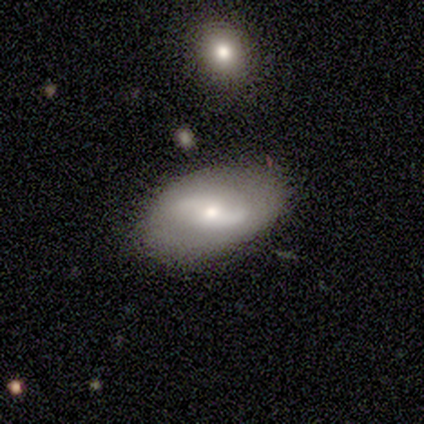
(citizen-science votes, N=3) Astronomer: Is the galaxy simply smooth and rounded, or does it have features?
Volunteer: featured or disk — 67%.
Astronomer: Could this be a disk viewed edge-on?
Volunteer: no — 100%.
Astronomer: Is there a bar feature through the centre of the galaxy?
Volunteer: weak — 50%, tied with no at 50%.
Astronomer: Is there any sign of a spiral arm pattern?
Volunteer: yes — 100%.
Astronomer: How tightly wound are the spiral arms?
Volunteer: loose — 100%.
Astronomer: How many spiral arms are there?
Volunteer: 2 — 100%.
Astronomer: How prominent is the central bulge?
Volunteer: small — 100%.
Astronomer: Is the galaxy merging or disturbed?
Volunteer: none — 67%.